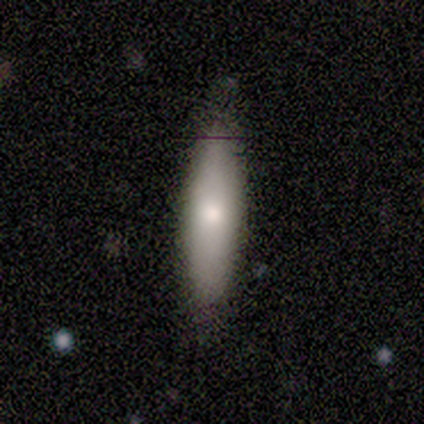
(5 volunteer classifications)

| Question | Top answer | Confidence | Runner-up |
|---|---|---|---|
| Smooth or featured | smooth | 100% | — |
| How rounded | in between | 80% | cigar-shaped (20%) |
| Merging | none | 80% | minor disturbance (20%) |